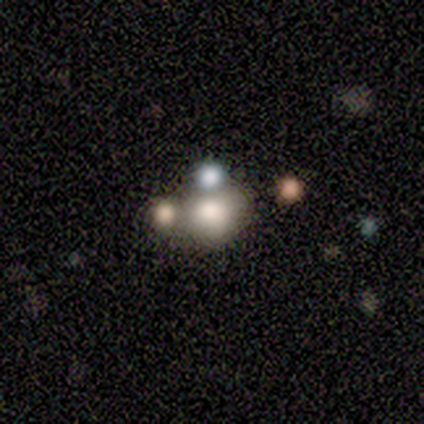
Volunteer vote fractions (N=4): A smooth galaxy with no disk features (50%) that is round (50%, tied with in between).

Vote fractions:
- Smooth or featured? smooth: 50% / featured or disk: 25% / star or artifact: 25%
- How rounded? round: 50% (tied) / in between: 50% (tied) / cigar-shaped: 0%
- Merging? none: 33% (tied) / major disturbance: 33% (tied) / merger: 33% (tied) / minor disturbance: 0%